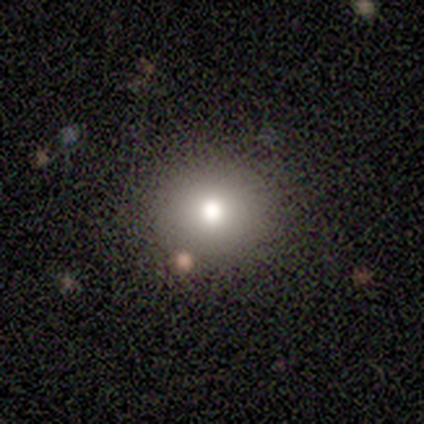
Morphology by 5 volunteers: Smooth or featured? smooth (100%)
How rounded? round (80%)
Merging? none (100%)